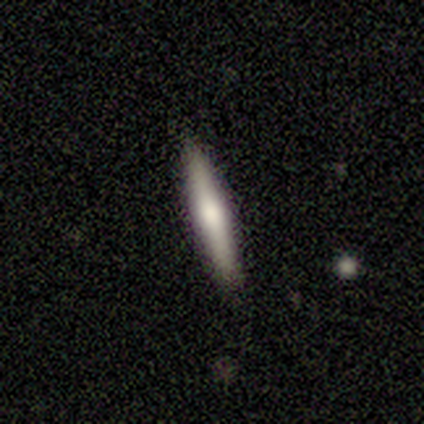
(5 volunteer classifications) A featured or disk galaxy (60%) viewed edge-on (100%) with a rounded central bulge (67%).

Vote fractions:
- Smooth or featured? featured or disk: 60% / smooth: 40% / star or artifact: 0%
- Edge-on disk? yes: 100% / no: 0%
- Edge-on bulge? rounded: 67% / none: 33% / boxy: 0%
- Merging? none: 100% / minor disturbance: 0% / major disturbance: 0% / merger: 0%